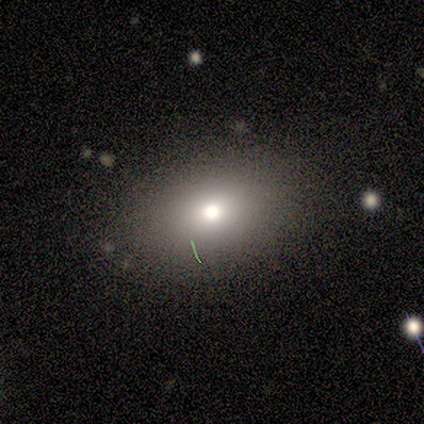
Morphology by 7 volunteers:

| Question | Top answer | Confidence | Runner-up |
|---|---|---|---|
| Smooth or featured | star or artifact | 57% | smooth (43%) |